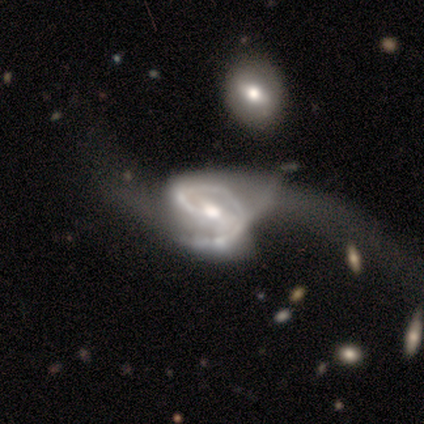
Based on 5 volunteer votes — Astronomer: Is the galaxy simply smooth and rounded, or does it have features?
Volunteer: featured or disk — 100%.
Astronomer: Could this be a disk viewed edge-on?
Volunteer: no — 100%.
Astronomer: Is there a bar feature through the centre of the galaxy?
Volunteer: weak — 60% (runner-up: no, 40%).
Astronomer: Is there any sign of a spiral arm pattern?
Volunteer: yes — 100%.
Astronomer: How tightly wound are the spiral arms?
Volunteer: medium — 60%.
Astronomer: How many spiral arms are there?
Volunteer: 2 — 80%.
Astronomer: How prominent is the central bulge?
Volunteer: moderate — 80%.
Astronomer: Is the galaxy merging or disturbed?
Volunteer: none — 40%, tied with major disturbance at 40%.